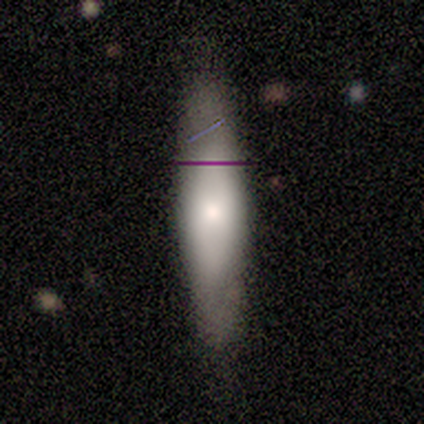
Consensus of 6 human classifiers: A smooth galaxy with no disk features (67%) that is in between round and cigar-shaped (50%, tied with cigar-shaped). Merging: none (83%).